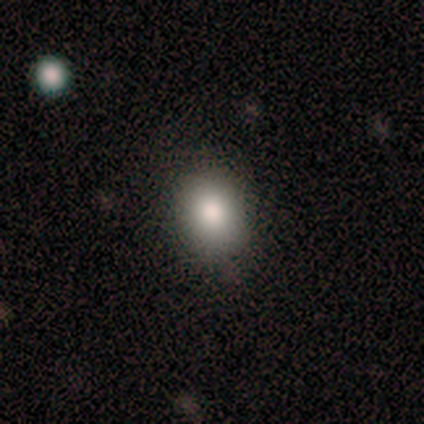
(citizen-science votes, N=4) Volunteers were most divided on "how rounded": round: 67%, in between: 33%, cigar-shaped: 0%. More confident: merging — none (100%); smooth or featured — smooth (75%).